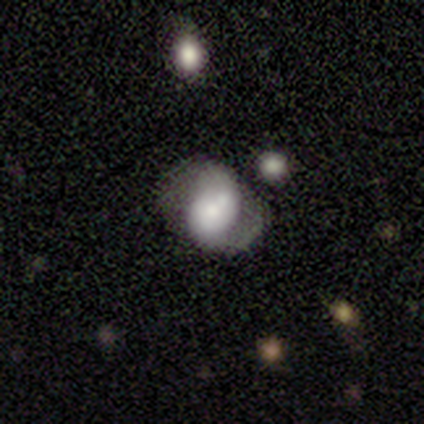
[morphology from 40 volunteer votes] smooth-or-featured: featured or disk: 62% | smooth: 32% | star or artifact: 5%
  disk-edge-on: no: 96% | yes: 4%
    bar: weak: 50% | no: 38% | strong: 12%
    has-spiral-arms: yes: 79% | no: 21%
      spiral-winding: tight: 42% | loose: 32% | medium: 26%
      spiral-arm-count: 2: 74% | 1: 21% | can't tell: 5% | 3: 0% | 4: 0% | more than 4: 0%
    bulge-size: large: 33% | moderate: 25% | small: 21% | dominant: 12% | none: 8%
  merging: none: 42% | minor disturbance: 32% | major disturbance: 13% | merger: 13%